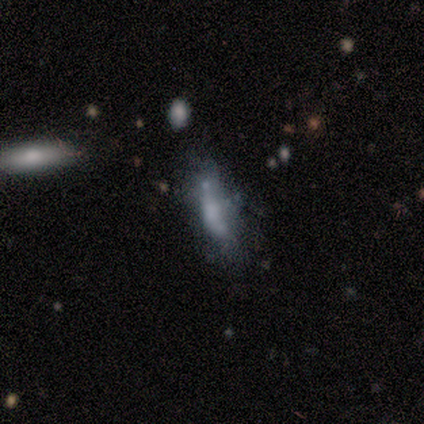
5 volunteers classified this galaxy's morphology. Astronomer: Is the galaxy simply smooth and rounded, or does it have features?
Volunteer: smooth — 60%.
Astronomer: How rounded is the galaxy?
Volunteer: cigar-shaped — 67%.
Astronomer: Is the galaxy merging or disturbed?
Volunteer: minor disturbance — 50%.